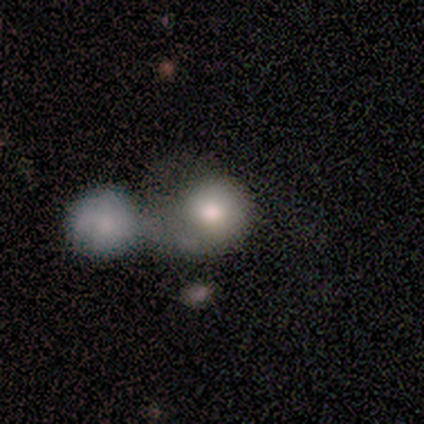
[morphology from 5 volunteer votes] Smooth or featured: smooth — 80% (star or artifact — 20%)
How rounded: round — 100%
Merging: none — 50% (tied with merger — 50%)